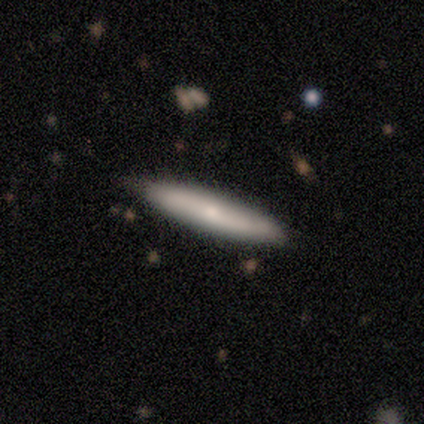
Smooth or featured? 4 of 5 (80%) said smooth. How rounded? 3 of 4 (75%) said cigar-shaped. Merging? 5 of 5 (100%) said none.